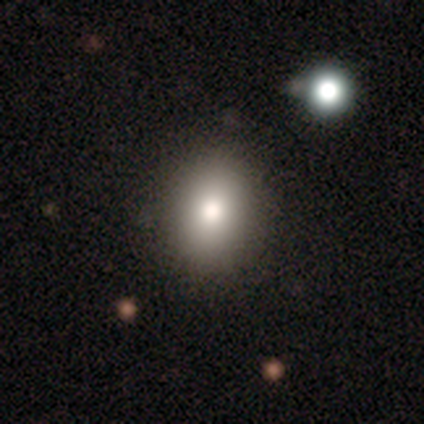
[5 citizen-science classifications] Overall: smooth (80%). How rounded: round (50%, tied with in between). Merging: none (100%).